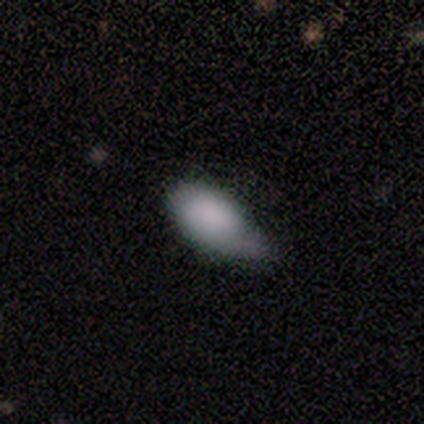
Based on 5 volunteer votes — Smooth or featured?
  - smooth: 100% *
  - featured or disk: 0%
  - star or artifact: 0%
How rounded?
  - in between: 80% *
  - cigar-shaped: 20%
  - round: 0%
Merging?
  - none: 60% *
  - minor disturbance: 40%
  - major disturbance: 0%
  - merger: 0%